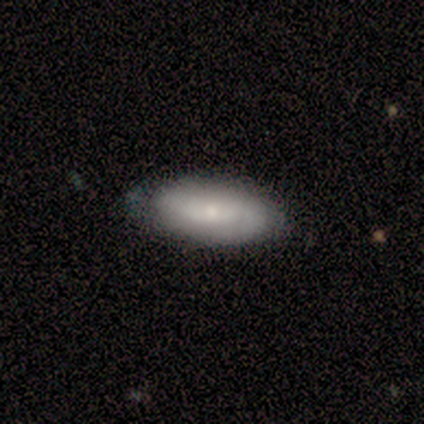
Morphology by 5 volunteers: Q: Smooth or featured?
A: smooth (60%); runner-up: featured or disk (40%)
Q: How rounded?
A: in between (67%); runner-up: cigar-shaped (33%)
Q: Merging?
A: none (40%); tied with: minor disturbance (40%)